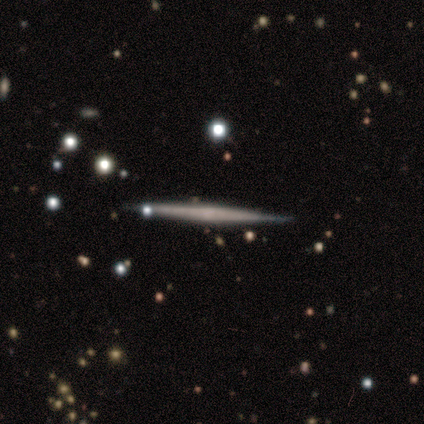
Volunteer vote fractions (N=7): featured or disk 86%, star or artifact 14%, smooth 0%. Down the decision tree: edge-on disk — yes (100%); edge-on bulge — none (67%); merging — none (100%).